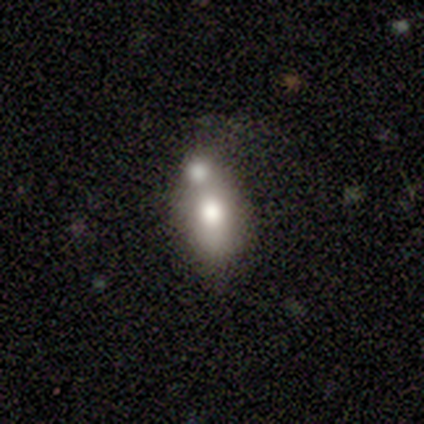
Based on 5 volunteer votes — Smooth or featured? 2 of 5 (40%, tied with featured or disk) said smooth. How rounded? 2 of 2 (100%) said in between. Merging? 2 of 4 (50%) said none.